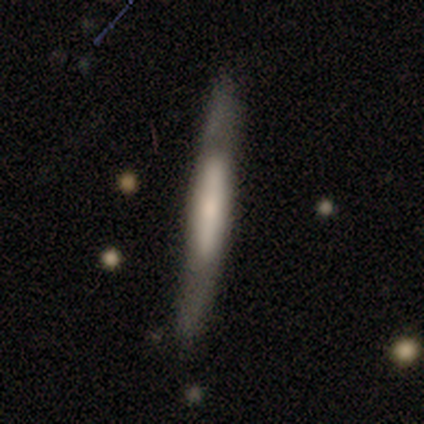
A smooth galaxy with no disk features (67%) that is cigar-shaped (100%). Merging: none (50%, tied with minor disturbance).